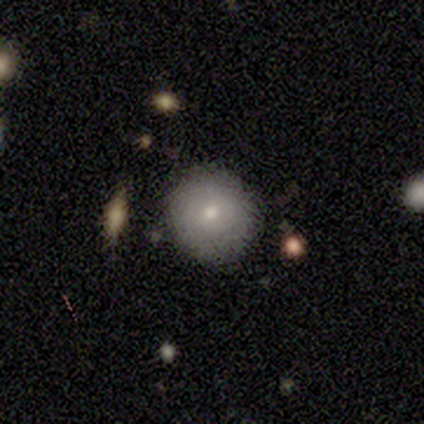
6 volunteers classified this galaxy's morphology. Smooth or featured?
  - smooth: 67% *
  - featured or disk: 33%
  - star or artifact: 0%
How rounded?
  - round: 100% *
  - in between: 0%
  - cigar-shaped: 0%
Merging?
  - none: 100% *
  - minor disturbance: 0%
  - major disturbance: 0%
  - merger: 0%